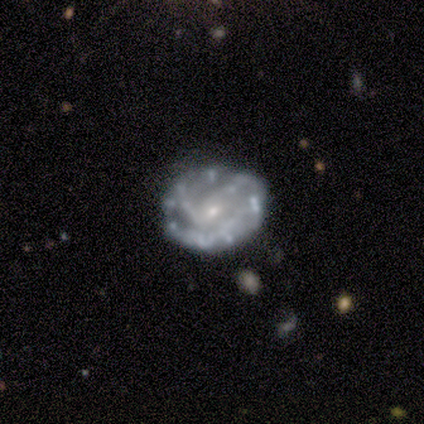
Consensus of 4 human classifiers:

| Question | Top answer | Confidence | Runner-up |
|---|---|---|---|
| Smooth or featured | featured or disk | 100% | — |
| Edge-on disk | no | 100% | — |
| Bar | weak | 50% | tied: no (50%) |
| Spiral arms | yes | 75% | no (25%) |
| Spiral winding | tight | 67% | medium (33%) |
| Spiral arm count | can't tell | 67% | 2 (33%) |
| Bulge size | small | 100% | — |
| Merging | none | 100% | — |